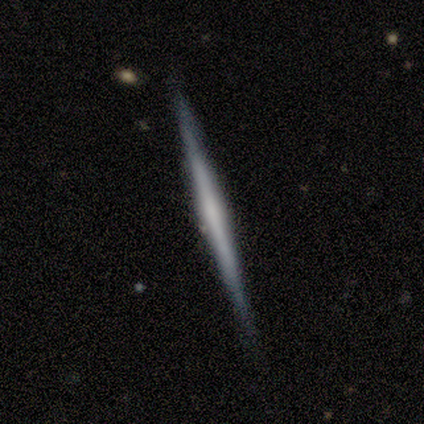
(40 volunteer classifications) This appears to be a featured or disk galaxy (65%) viewed edge-on (100%) with no central bulge (65%). Merging: none (97%).